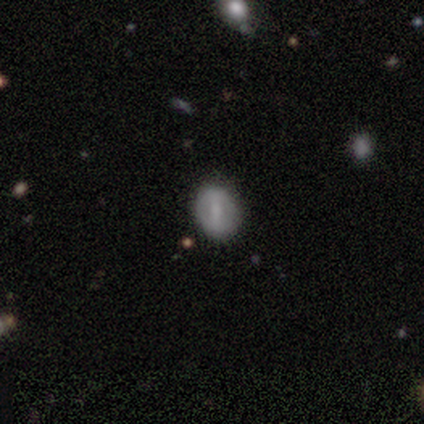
Overall: featured or disk (60%; smooth 20%). Edge-on disk: no (100%). Bar: weak (67%; strong 33%). Spiral arms: no (100%). Bulge size: large (33%, tied with small and none). Merging: none (75%).